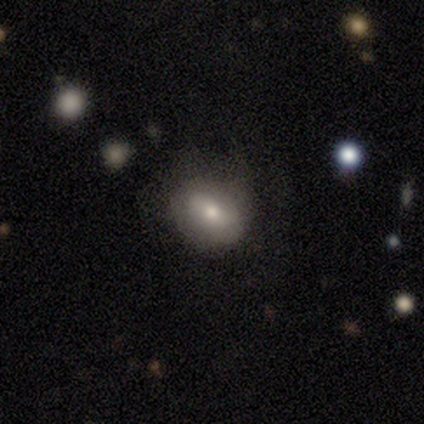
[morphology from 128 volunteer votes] A smooth galaxy with no disk features (59%) that is in between round and cigar-shaped (57%). Merging: none (63%).